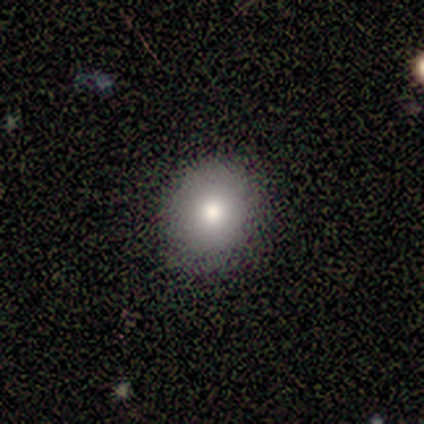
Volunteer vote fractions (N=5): Morphology: type=smooth (100%); roundness=round (80%); merging=none (100%).